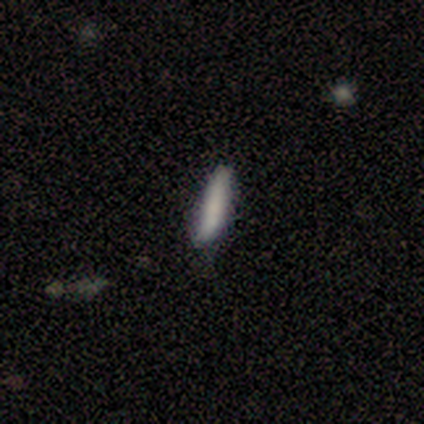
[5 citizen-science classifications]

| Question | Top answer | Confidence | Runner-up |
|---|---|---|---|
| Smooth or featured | smooth | 80% | featured or disk (20%) |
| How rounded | cigar-shaped | 100% | — |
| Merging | none | 80% | minor disturbance (20%) |